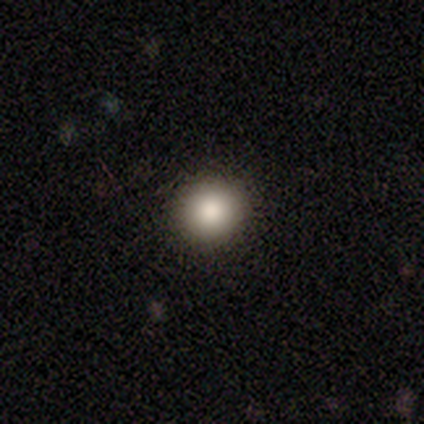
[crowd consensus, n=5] Q: Smooth or featured?
A: smooth (100%)
Q: How rounded?
A: round (80%); runner-up: in between (20%)
Q: Merging?
A: none (100%)